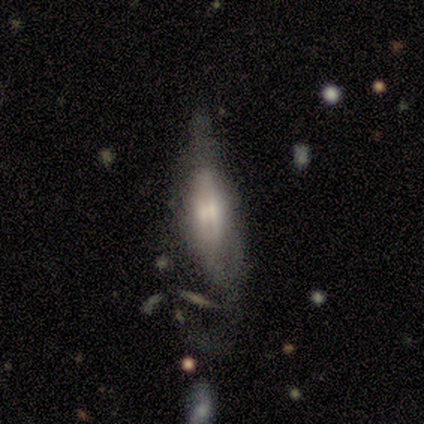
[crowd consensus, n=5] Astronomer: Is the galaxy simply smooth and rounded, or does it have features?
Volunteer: featured or disk — 80%.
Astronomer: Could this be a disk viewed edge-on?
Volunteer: yes — 50%, tied with no at 50%.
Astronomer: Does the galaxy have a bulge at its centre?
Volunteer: boxy — 50%, tied with rounded at 50%.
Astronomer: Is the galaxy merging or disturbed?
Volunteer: minor disturbance — 40%, tied with merger at 40%.